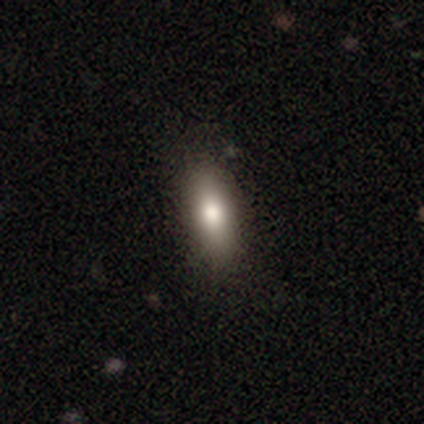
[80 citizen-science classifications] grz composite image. It shows a smooth galaxy with no disk features (86%) that is in between round and cigar-shaped (84%). Merging: none (49%).